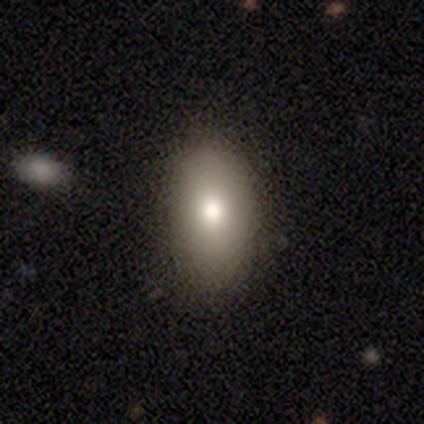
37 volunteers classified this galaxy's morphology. This appears to be a smooth galaxy with no disk features (86%) that is in between round and cigar-shaped (94%). Merging: none (83%).